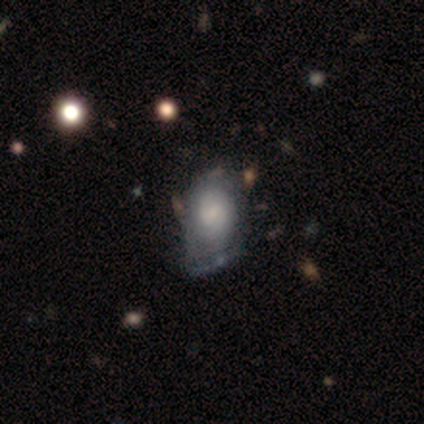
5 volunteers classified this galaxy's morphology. A featured or disk galaxy (80%) with no bar (100%), 2 (50%, tied with can't tell) tight (50%, tied with loose) spiral arms (50%, tied with no) and a large central bulge (50%).

Vote fractions:
- Smooth or featured? featured or disk: 80% / smooth: 20% / star or artifact: 0%
- Edge-on disk? no: 100% / yes: 0%
- Bar? no: 100% / strong: 0% / weak: 0%
- Spiral arms? yes: 50% (tied) / no: 50% (tied)
- Spiral winding? tight: 50% (tied) / loose: 50% (tied) / medium: 0%
- Spiral arm count? 2: 50% (tied) / can't tell: 50% (tied) / 1: 0% / 3: 0% / 4: 0% / more than 4: 0%
- Bulge size? large: 50% / moderate: 25% / none: 25% / dominant: 0% / small: 0%
- Merging? none: 40% (tied) / minor disturbance: 40% (tied) / major disturbance: 20% / merger: 0%